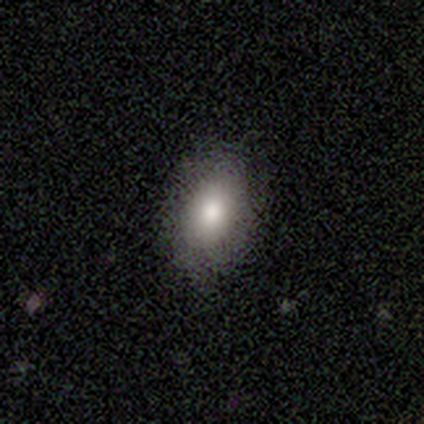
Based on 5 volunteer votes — Smooth or featured? smooth (100%)
How rounded? in between (80%)
Merging? none (100%)